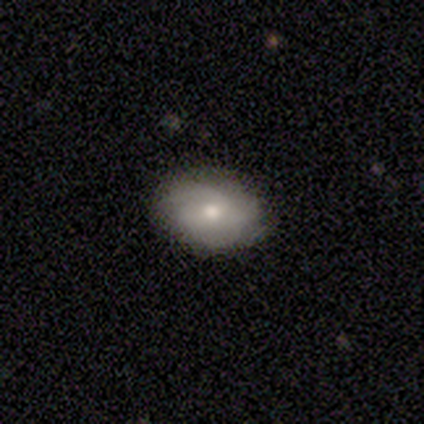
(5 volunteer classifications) Smooth or featured? featured or disk (60%)
Edge-on disk? no (100%)
Bar? no (67%)
Spiral arms? yes (67%)
Spiral winding? medium (50%, tied with loose)
Spiral arm count? can't tell (100%)
Bulge size? small (67%)
Merging? none (80%)